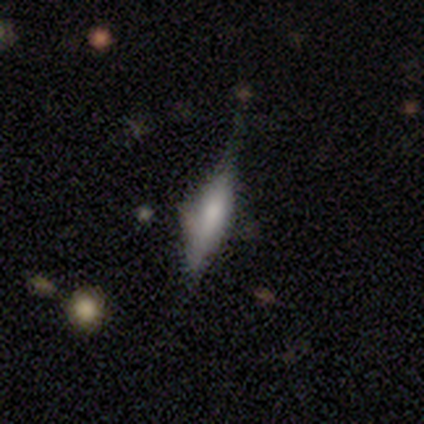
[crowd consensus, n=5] Smooth or featured?
  - smooth: 60% *
  - featured or disk: 20%
  - star or artifact: 20%
How rounded?
  - cigar-shaped: 67% *
  - in between: 33%
  - round: 0%
Merging?
  - minor disturbance: 50% *
  - none: 25%
  - major disturbance: 25%
  - merger: 0%